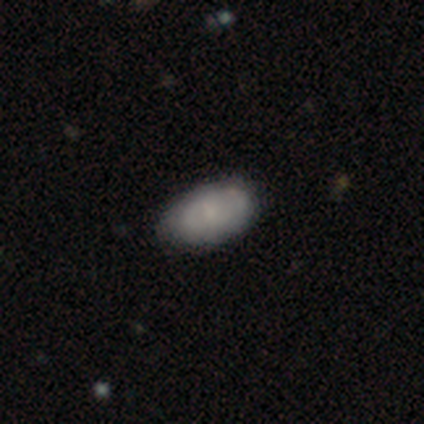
smooth-or-featured: smooth: 40% (tied) | featured or disk: 40% (tied) | star or artifact: 20%
  how-rounded: in between: 100% | round: 0% | cigar-shaped: 0%
  merging: none: 100% | minor disturbance: 0% | major disturbance: 0% | merger: 0%